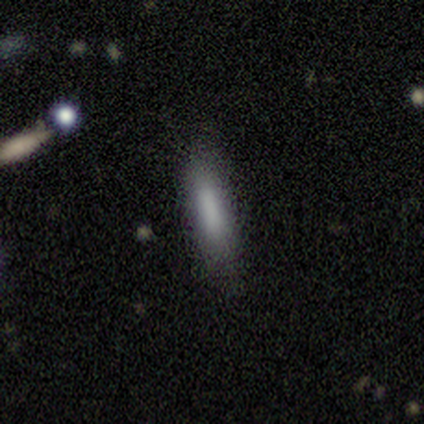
Volunteers were most divided on "how rounded": cigar-shaped: 75%, in between: 25%, round: 0%. More confident: merging — none (100%); smooth or featured — smooth (80%).